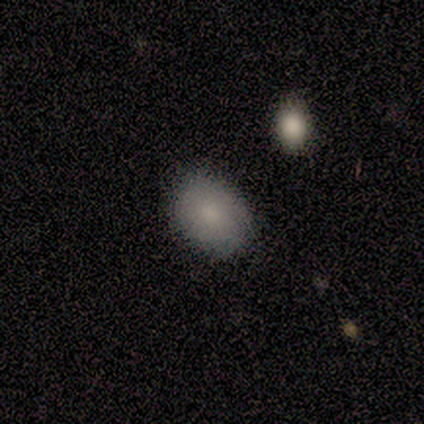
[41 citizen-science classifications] Volunteers were most divided on "merging": none: 70%, minor disturbance: 10%, major disturbance: 2%, merger: 0%. More confident: smooth or featured — smooth (85%); how rounded — in between (83%).